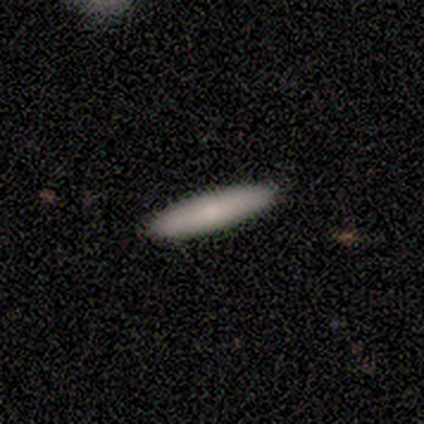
Q: Smooth or featured?
A: smooth (80%); runner-up: featured or disk (20%)
Q: How rounded?
A: cigar-shaped (75%); runner-up: in between (25%)
Q: Merging?
A: none (80%); runner-up: minor disturbance (20%)